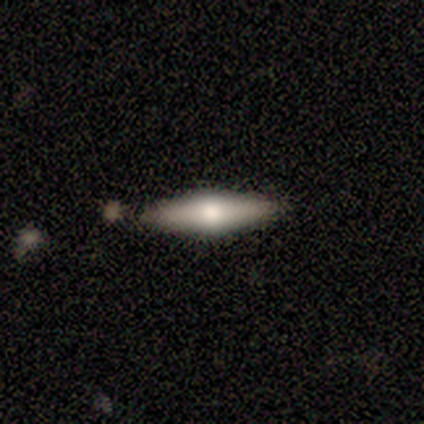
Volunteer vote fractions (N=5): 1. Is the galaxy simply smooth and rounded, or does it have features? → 60% featured or disk, 40% smooth, 0% star or artifact.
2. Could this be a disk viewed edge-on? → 100% yes, 0% no.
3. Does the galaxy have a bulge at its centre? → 100% rounded, 0% boxy, 0% none.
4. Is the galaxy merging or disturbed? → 80% none, 20% merger, 0% minor disturbance, 0% major disturbance.